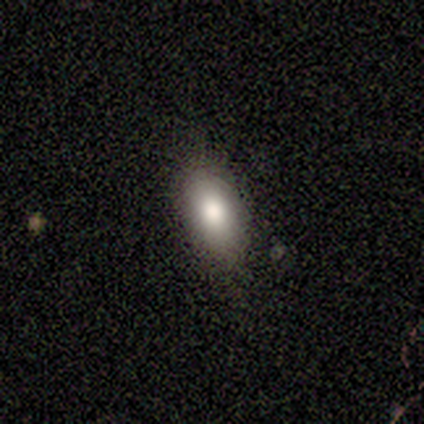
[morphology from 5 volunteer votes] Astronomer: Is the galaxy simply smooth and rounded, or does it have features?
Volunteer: smooth — 60% (runner-up: featured or disk, 40%).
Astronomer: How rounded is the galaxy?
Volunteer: round — 33%, tied with in between and cigar-shaped at 33%.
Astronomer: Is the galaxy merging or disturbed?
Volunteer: none — 80%.